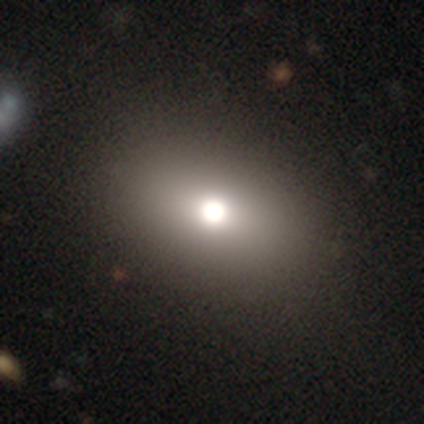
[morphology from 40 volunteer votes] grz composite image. It shows a smooth galaxy with no disk features (57%) that is in between round and cigar-shaped (78%). Merging: none (69%).